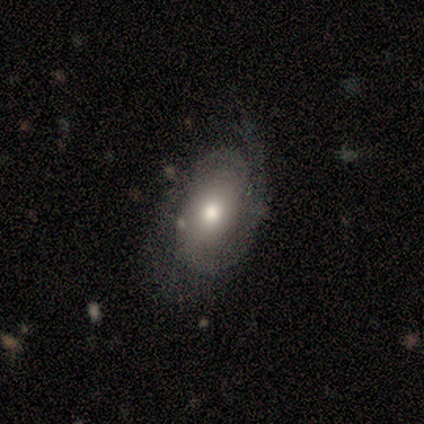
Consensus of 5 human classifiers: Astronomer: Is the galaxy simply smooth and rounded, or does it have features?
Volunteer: featured or disk — 80%.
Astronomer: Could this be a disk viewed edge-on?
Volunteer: no — 100%.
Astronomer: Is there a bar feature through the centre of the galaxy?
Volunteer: no — 100%.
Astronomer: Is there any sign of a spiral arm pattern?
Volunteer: yes — 100%.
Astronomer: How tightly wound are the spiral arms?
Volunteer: tight — 75%.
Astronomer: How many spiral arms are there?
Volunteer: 2 — 50%.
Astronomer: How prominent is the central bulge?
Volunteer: moderate — 50%.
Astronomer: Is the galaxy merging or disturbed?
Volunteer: none — 60% (runner-up: major disturbance, 40%).